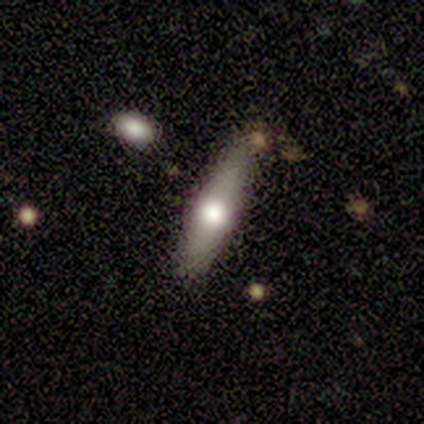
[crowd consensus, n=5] Overall: smooth (80%). How rounded: cigar-shaped (75%). Merging: none (100%).